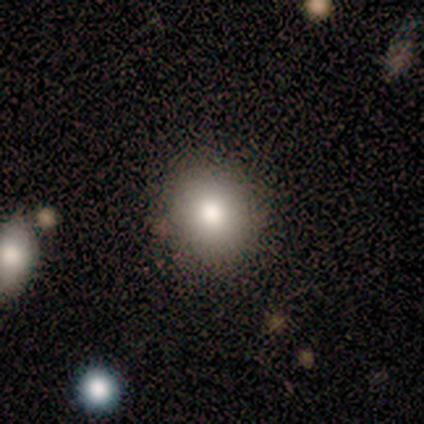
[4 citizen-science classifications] A smooth galaxy with no disk features (75%) that is round (67%).

Vote fractions:
- Smooth or featured? smooth: 75% / star or artifact: 25% / featured or disk: 0%
- How rounded? round: 67% / in between: 33% / cigar-shaped: 0%
- Merging? none: 67% / minor disturbance: 33% / major disturbance: 0% / merger: 0%